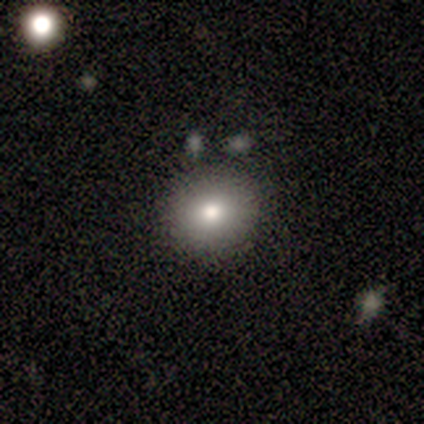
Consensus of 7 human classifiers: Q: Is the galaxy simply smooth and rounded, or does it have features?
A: smooth — 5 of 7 (71%).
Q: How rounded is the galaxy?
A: round — 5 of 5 (100%).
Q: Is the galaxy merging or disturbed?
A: none — 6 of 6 (100%).